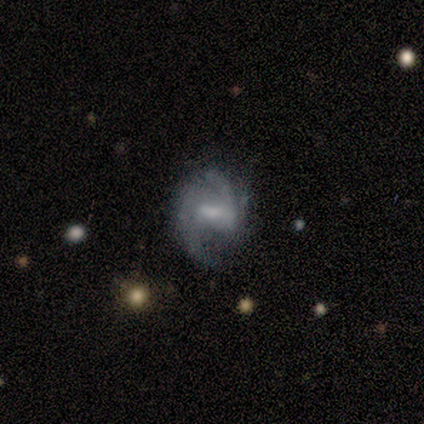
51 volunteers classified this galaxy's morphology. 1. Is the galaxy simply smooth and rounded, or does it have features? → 82% featured or disk, 12% smooth, 6% star or artifact.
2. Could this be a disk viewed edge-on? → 100% no, 0% yes.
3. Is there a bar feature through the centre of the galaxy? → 48% weak, 31% strong, 21% no.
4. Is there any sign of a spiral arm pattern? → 100% yes, 0% no.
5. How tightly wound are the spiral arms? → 45% medium, 36% loose, 19% tight.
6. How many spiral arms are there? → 76% 2, 14% can't tell, 7% 3, 2% 4, 0% 1, 0% more than 4.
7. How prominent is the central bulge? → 33% moderate, 31% small, 24% none, 12% large, 0% dominant.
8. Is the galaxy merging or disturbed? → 54% none, 31% minor disturbance, 15% major disturbance, 0% merger.